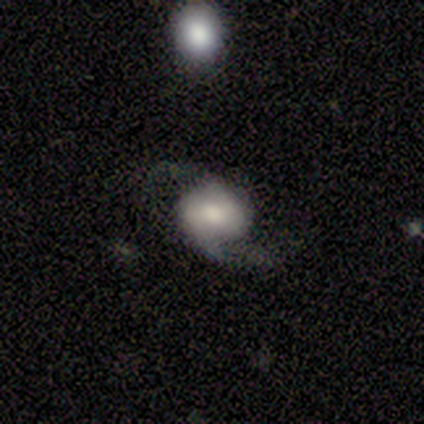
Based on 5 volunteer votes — This appears to be a featured or disk galaxy (80%) with a strong bar (33%, tied with weak and no), 2 (100%) loose (67%) spiral arms (100%) and a moderate central bulge (67%). Merging: none (80%).